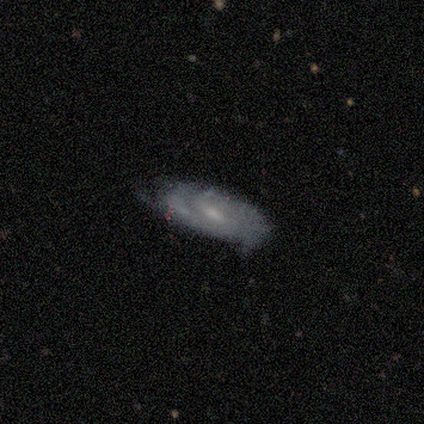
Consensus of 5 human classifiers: smooth-or-featured: featured or disk: 100% | smooth: 0% | star or artifact: 0%
  disk-edge-on: no: 60% | yes: 40%
    bar: weak: 67% | no: 33% | strong: 0%
    has-spiral-arms: yes: 67% | no: 33%
      spiral-winding: medium: 50% (tied) | loose: 50% (tied) | tight: 0%
      spiral-arm-count: 2: 50% (tied) | can't tell: 50% (tied) | 1: 0% | 3: 0% | 4: 0% | more than 4: 0%
    bulge-size: small: 67% | none: 33% | dominant: 0% | large: 0% | moderate: 0%
  merging: none: 40% (tied) | minor disturbance: 40% (tied) | merger: 20% | major disturbance: 0%